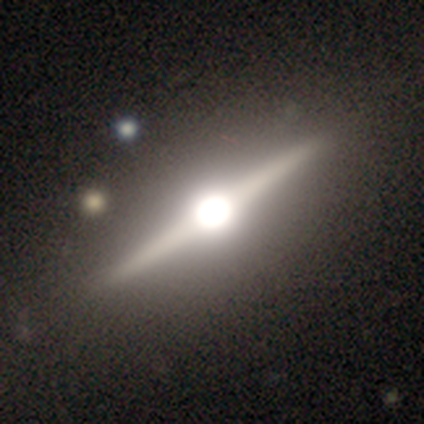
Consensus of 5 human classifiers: A featured or disk galaxy (100%) viewed edge-on (80%) with a rounded central bulge (100%).

Vote fractions:
- Smooth or featured? featured or disk: 100% / smooth: 0% / star or artifact: 0%
- Edge-on disk? yes: 80% / no: 20%
- Edge-on bulge? rounded: 100% / boxy: 0% / none: 0%
- Merging? none: 80% / minor disturbance: 20% / major disturbance: 0% / merger: 0%